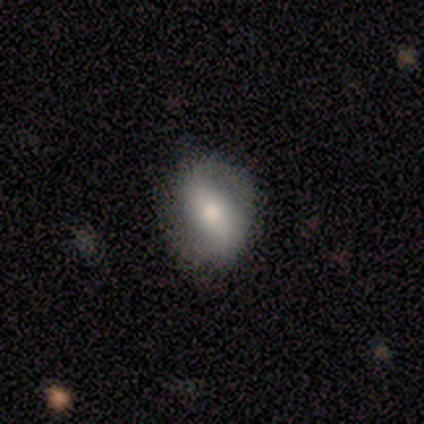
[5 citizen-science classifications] Smooth or featured? smooth (40%, tied with featured or disk)
How rounded? in between (100%)
Merging? none (75%)